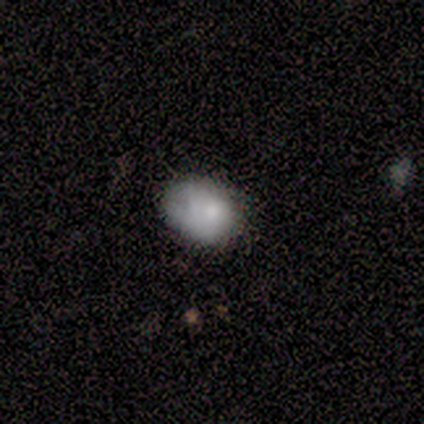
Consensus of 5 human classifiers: Smooth or featured: smooth — 100%
How rounded: in between — 80% (round — 20%)
Merging: none — 80% (merger — 20%)